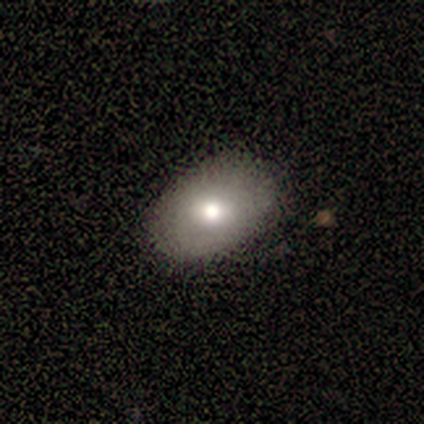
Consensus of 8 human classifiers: A smooth galaxy with no disk features (88%) that is in between round and cigar-shaped (71%). Merging: none (88%).